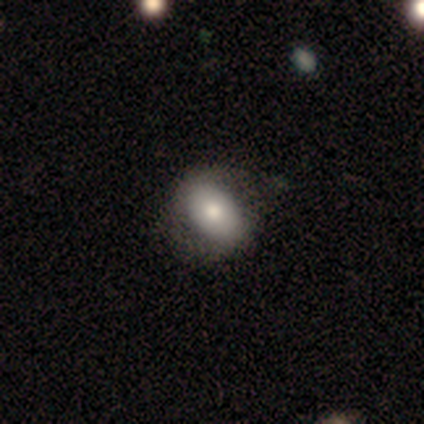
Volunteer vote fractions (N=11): smooth_or_featured: featured or disk (p=0.55) [alt: smooth p=0.45]
disk_edge_on: no (p=1.00)
bar: no (p=1.00)
has_spiral_arms: no (p=0.67) [alt: yes p=0.33]
bulge_size: moderate (p=0.33) [tied with: small p=0.33]
merging: none (p=0.36) [tied with: minor disturbance p=0.36]